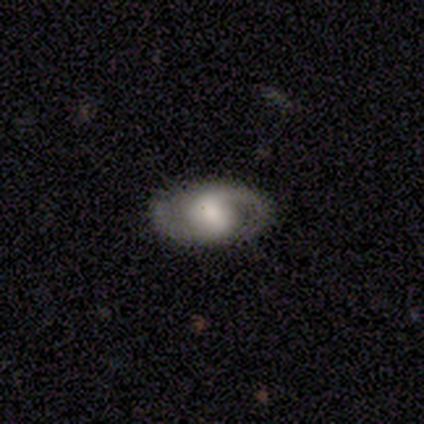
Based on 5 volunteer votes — smooth-or-featured: featured or disk: 100% | smooth: 0% | star or artifact: 0%
  disk-edge-on: no: 100% | yes: 0%
    bar: weak: 60% | strong: 20% | no: 20%
    has-spiral-arms: yes: 100% | no: 0%
      spiral-winding: medium: 60% | tight: 20% | loose: 20%
      spiral-arm-count: 2: 100% | 1: 0% | 3: 0% | 4: 0% | more than 4: 0% | can't tell: 0%
    bulge-size: large: 40% (tied) | small: 40% (tied) | moderate: 20% | dominant: 0% | none: 0%
  merging: none: 100% | minor disturbance: 0% | major disturbance: 0% | merger: 0%